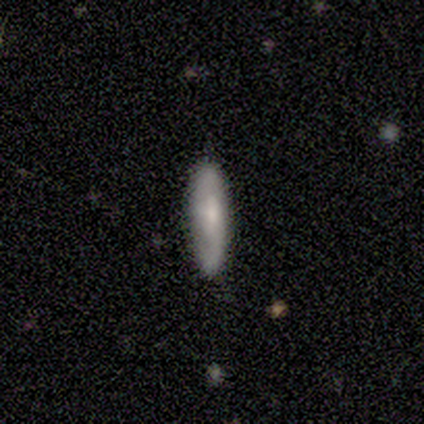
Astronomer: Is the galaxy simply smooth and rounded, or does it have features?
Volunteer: smooth — 60% (runner-up: featured or disk, 40%).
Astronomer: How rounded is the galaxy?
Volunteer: cigar-shaped — 100%.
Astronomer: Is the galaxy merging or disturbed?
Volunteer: none — 60%.